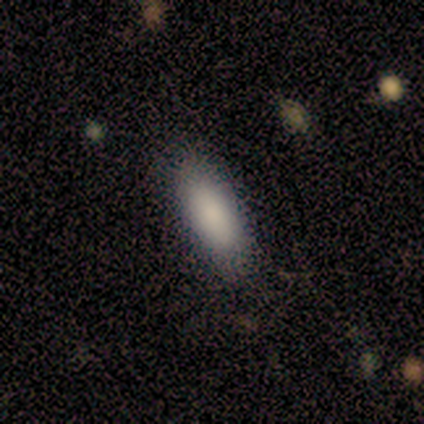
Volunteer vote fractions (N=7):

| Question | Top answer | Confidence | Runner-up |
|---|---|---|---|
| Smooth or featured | smooth | 86% | featured or disk (14%) |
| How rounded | in between | 100% | — |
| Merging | none | 71% | minor disturbance (29%) |